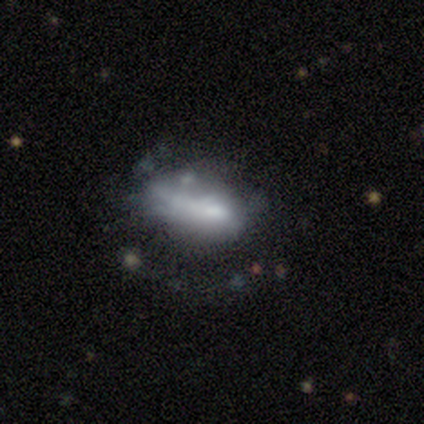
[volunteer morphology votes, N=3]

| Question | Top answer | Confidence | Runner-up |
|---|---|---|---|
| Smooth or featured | featured or disk | 67% | smooth (33%) |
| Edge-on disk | no | 100% | — |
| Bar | strong | 50% | tied: no (50%) |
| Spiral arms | no | 100% | — |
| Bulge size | moderate | 50% | tied: small (50%) |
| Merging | minor disturbance | 67% | merger (33%) |